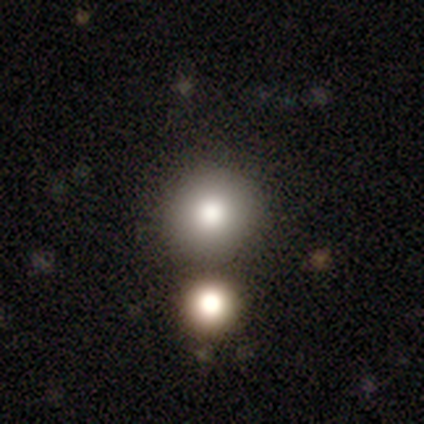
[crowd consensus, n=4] Smooth or featured? 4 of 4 (100%) said smooth. How rounded? 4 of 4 (100%) said round. Merging? 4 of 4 (100%) said none.